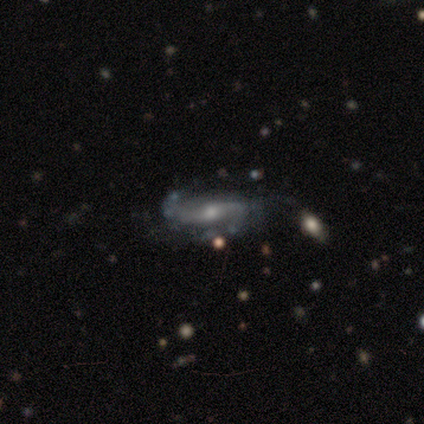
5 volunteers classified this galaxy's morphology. Smooth or featured: featured or disk — 80% (smooth — 20%)
Edge-on disk: no — 100%
Bar: weak — 75% (strong — 25%)
Spiral arms: yes — 100%
Spiral winding: medium — 50% (tied with loose — 50%)
Spiral arm count: 2 — 75% (can't tell — 25%)
Bulge size: small — 75% (moderate — 25%)
Merging: none — 100%